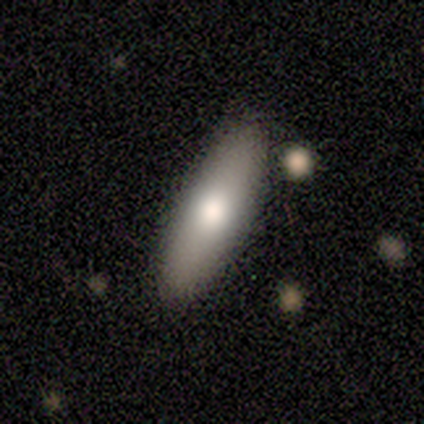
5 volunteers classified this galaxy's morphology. A smooth galaxy with no disk features (100%) that is cigar-shaped (60%).

Vote fractions:
- Smooth or featured? smooth: 100% / featured or disk: 0% / star or artifact: 0%
- How rounded? cigar-shaped: 60% / in between: 40% / round: 0%
- Merging? none: 100% / minor disturbance: 0% / major disturbance: 0% / merger: 0%